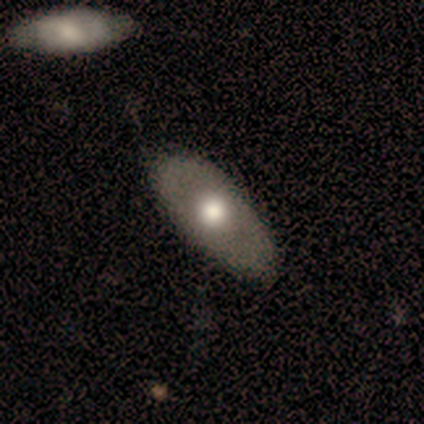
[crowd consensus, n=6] Smooth or featured: smooth — 50% (featured or disk — 33%)
How rounded: in between — 100%
Merging: none — 100%